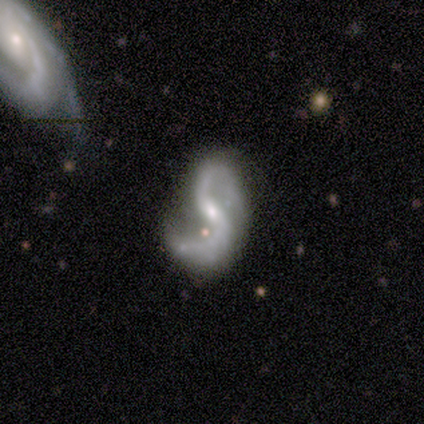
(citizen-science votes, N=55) A featured or disk galaxy (85%) with a weak bar (57%), 2 (93%) loose (60%) spiral arms (98%) and a small central bulge (63%). Merging: none (51%).